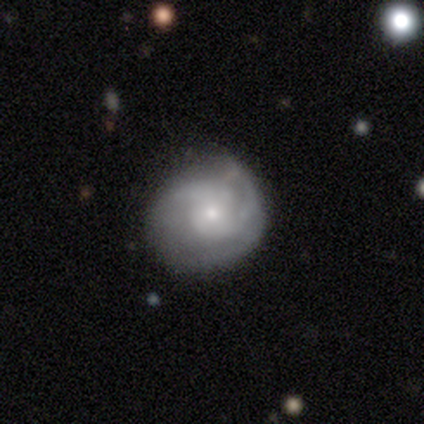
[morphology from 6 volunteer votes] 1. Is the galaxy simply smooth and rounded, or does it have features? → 83% featured or disk, 17% star or artifact, 0% smooth.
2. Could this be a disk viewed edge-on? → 100% no, 0% yes.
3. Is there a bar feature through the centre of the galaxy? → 60% no, 20% strong, 20% weak.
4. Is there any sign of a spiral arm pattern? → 100% yes, 0% no.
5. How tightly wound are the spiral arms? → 60% tight, 20% medium, 20% loose.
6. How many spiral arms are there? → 60% 2, 40% can't tell, 0% 1, 0% 3, 0% 4, 0% more than 4.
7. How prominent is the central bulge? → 60% small, 40% moderate, 0% dominant, 0% large, 0% none.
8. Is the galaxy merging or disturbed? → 100% none, 0% minor disturbance, 0% major disturbance, 0% merger.